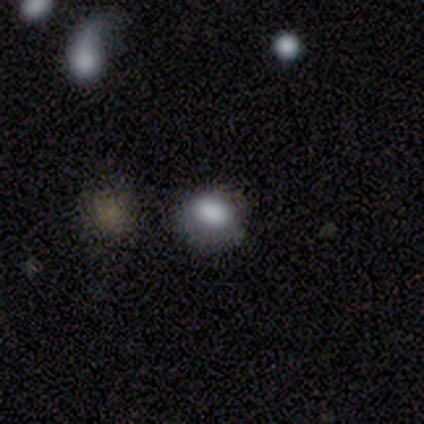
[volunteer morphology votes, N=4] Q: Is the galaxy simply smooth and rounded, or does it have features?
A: smooth — 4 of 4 (100%).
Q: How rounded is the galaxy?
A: in between — 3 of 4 (75%).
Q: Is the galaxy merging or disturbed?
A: none — 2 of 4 (50%).